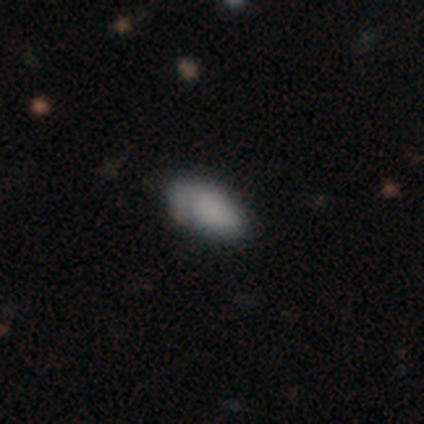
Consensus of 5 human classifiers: smooth-or-featured: smooth: 80% | featured or disk: 20% | star or artifact: 0%
  how-rounded: in between: 100% | round: 0% | cigar-shaped: 0%
  merging: none: 80% | minor disturbance: 20% | major disturbance: 0% | merger: 0%